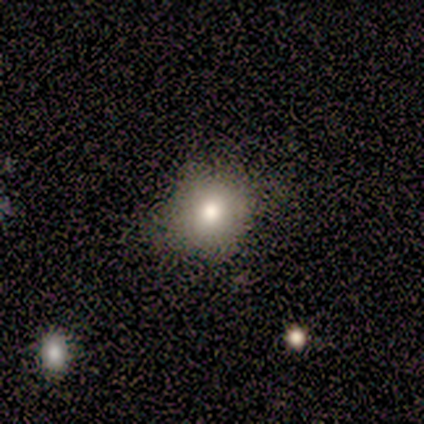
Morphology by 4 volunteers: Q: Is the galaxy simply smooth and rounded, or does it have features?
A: smooth — 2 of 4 (50%, tied with featured or disk).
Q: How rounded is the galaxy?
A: round — 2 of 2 (100%).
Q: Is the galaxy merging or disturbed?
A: none — 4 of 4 (100%).